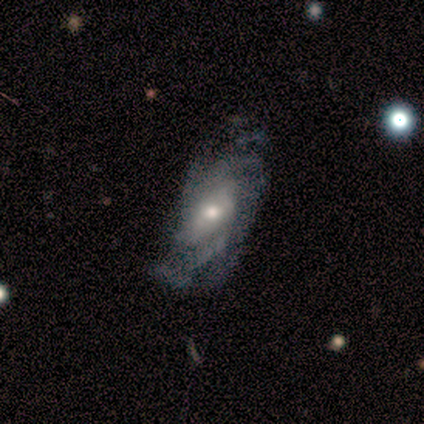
Smooth or featured? 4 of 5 (80%) said featured or disk. Edge-on disk? 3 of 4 (75%) said no. Bar? 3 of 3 (100%) said no. Spiral arms? 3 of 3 (100%) said yes. Spiral winding? 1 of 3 (33%, tied with medium and loose) said tight. Spiral arm count? 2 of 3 (67%) said 2. Bulge size? 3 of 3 (100%) said moderate. Merging? 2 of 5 (40%, tied with major disturbance) said none.